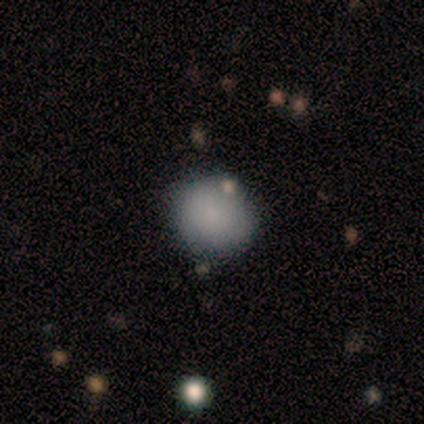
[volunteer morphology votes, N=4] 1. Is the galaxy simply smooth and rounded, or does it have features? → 75% smooth, 25% featured or disk, 0% star or artifact.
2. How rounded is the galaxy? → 67% round, 33% in between, 0% cigar-shaped.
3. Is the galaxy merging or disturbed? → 75% none, 25% minor disturbance, 0% major disturbance, 0% merger.